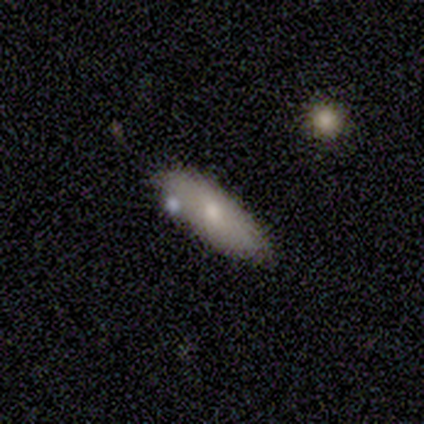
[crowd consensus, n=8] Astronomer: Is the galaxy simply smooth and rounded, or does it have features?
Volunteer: smooth — 62%.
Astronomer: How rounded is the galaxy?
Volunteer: cigar-shaped — 60% (runner-up: in between, 40%).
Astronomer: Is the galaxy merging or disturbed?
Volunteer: none — 71%.